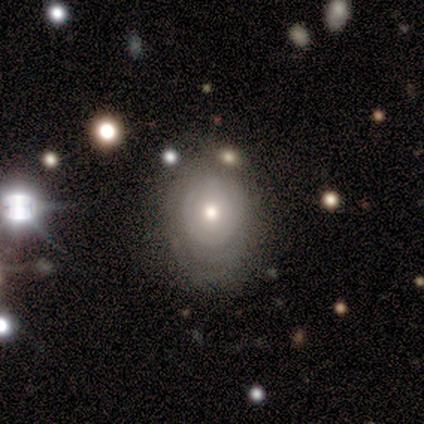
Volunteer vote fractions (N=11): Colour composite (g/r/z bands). It shows a featured or disk galaxy (64%) with no bar (86%), no spiral arms (86%) and a moderate central bulge (57%). Merging: none (70%).